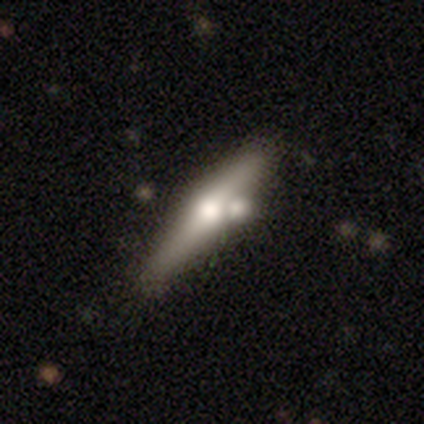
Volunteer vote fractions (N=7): A smooth galaxy with no disk features (71%) that is cigar-shaped (80%). Merging: none (43%, tied with merger).